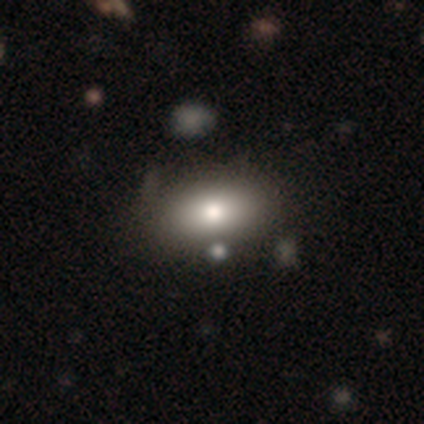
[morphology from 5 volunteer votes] smooth-or-featured: smooth: 80% | star or artifact: 20% | featured or disk: 0%
  how-rounded: in between: 100% | round: 0% | cigar-shaped: 0%
  merging: none: 100% | minor disturbance: 0% | major disturbance: 0% | merger: 0%